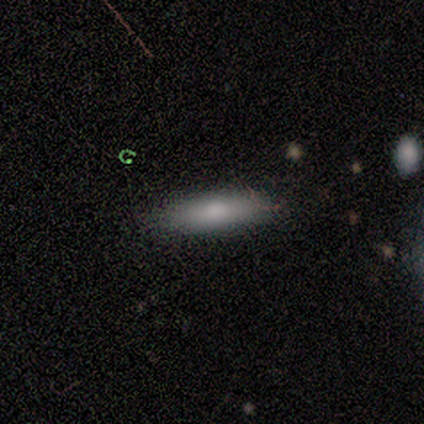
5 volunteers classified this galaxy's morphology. Volunteers were most divided on "how rounded": in between: 60%, cigar-shaped: 40%, round: 0%. More confident: smooth or featured — smooth (100%); merging — none (100%).